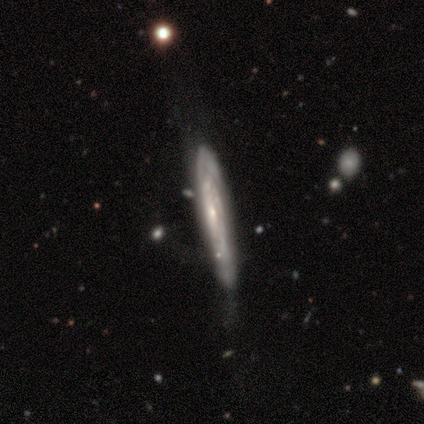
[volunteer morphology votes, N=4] Q: Smooth or featured?
A: smooth (50%); tied with: featured or disk (50%)
Q: How rounded?
A: cigar-shaped (100%)
Q: Merging?
A: minor disturbance (50%); runner-up: none (25%)